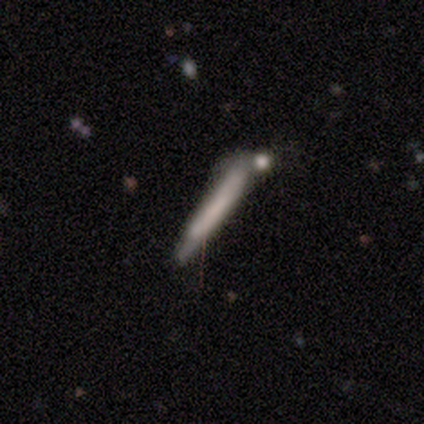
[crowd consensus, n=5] Smooth or featured? 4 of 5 (80%) said smooth. How rounded? 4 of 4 (100%) said cigar-shaped. Merging? 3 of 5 (60%) said none.